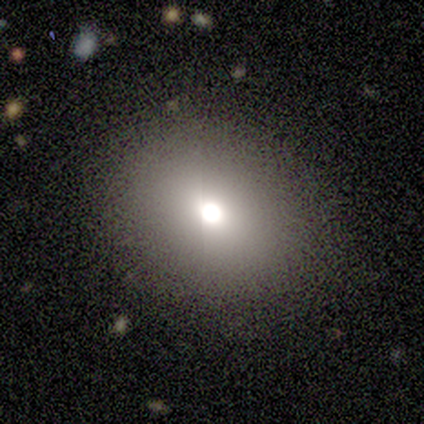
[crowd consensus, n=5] Morphology: type=smooth (60%); roundness=round (67%); merging=none (80%).